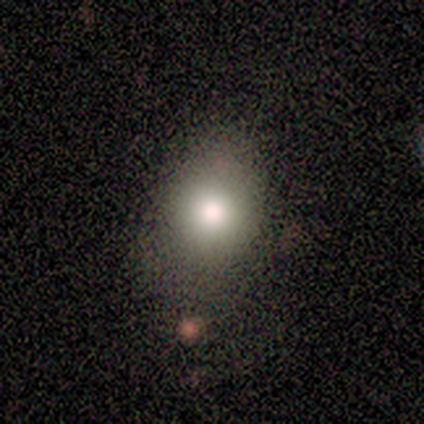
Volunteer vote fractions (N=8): A smooth galaxy with no disk features (50%) that is round (50%, tied with in between).

Vote fractions:
- Smooth or featured? smooth: 50% / star or artifact: 38% / featured or disk: 12%
- How rounded? round: 50% (tied) / in between: 50% (tied) / cigar-shaped: 0%
- Merging? none: 80% / minor disturbance: 20% / major disturbance: 0% / merger: 0%